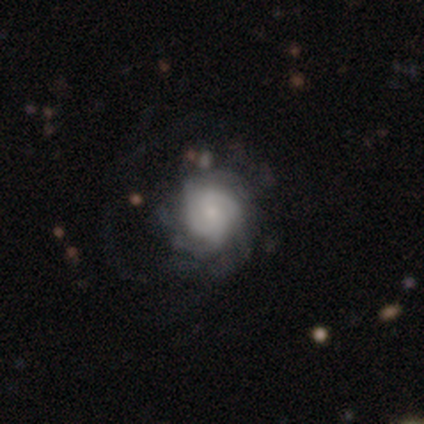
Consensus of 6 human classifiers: Smooth or featured? 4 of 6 (67%) said featured or disk. Edge-on disk? 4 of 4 (100%) said no. Bar? 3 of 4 (75%) said no. Spiral arms? 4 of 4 (100%) said yes. Spiral winding? 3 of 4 (75%) said tight. Spiral arm count? 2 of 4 (50%) said can't tell. Bulge size? 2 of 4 (50%) said large. Merging? 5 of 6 (83%) said major disturbance.